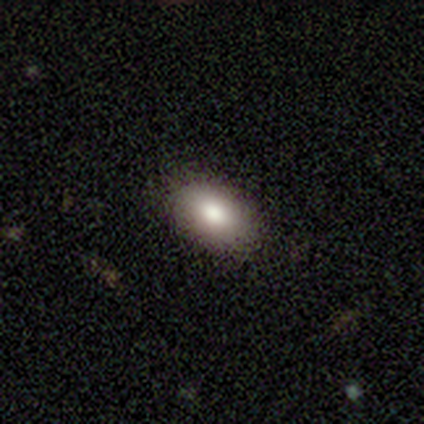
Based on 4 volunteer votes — Smooth or featured?
  - smooth: 100% *
  - featured or disk: 0%
  - star or artifact: 0%
How rounded?
  - in between: 100% *
  - round: 0%
  - cigar-shaped: 0%
Merging?
  - none: 100% *
  - minor disturbance: 0%
  - major disturbance: 0%
  - merger: 0%